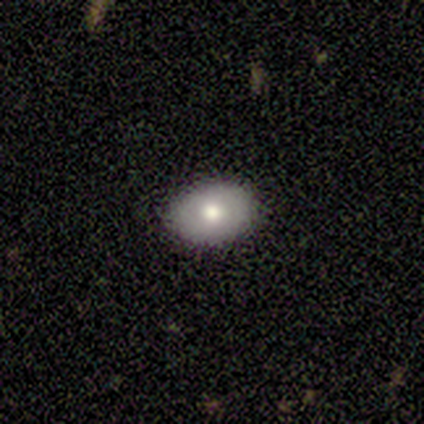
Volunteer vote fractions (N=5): A smooth galaxy with no disk features (60%) that is round (67%). Merging: none (80%).